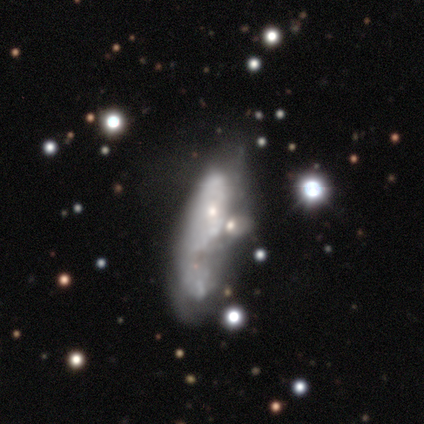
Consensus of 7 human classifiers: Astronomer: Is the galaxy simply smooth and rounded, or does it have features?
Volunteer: star or artifact — 43% (runner-up: smooth, 29%).